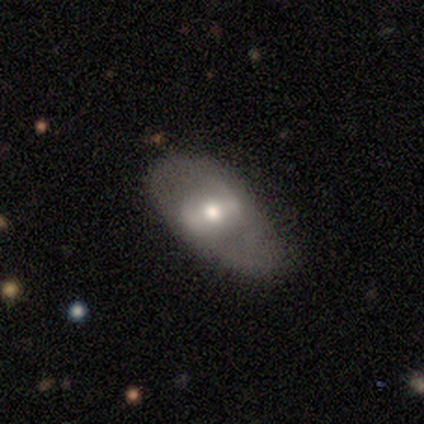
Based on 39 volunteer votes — A featured or disk galaxy (62%) with a strong bar (45%, tied with weak), 2 (82%) medium (36%, tied with loose) spiral arms (50%, tied with no) and a moderate central bulge (73%).

Vote fractions:
- Smooth or featured? featured or disk: 62% / smooth: 26% / star or artifact: 13%
- Edge-on disk? no: 92% / yes: 8%
- Bar? strong: 45% (tied) / weak: 45% (tied) / no: 9%
- Spiral arms? yes: 50% (tied) / no: 50% (tied)
- Spiral winding? medium: 36% (tied) / loose: 36% (tied) / tight: 27%
- Spiral arm count? 2: 82% / 1: 9% / can't tell: 9% / 3: 0% / 4: 0% / more than 4: 0%
- Bulge size? moderate: 73% / small: 23% / large: 5% / dominant: 0% / none: 0%
- Merging? none: 47% (tied) / minor disturbance: 47% (tied) / major disturbance: 6% / merger: 0%